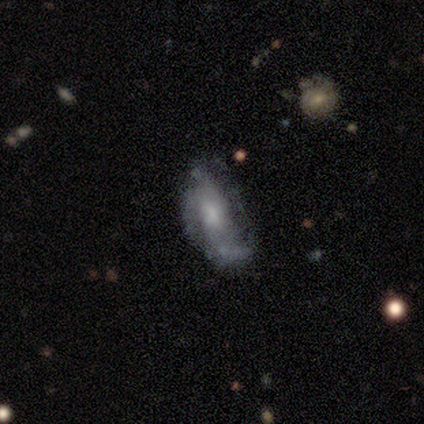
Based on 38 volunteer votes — smooth_or_featured: featured or disk (p=0.63) [alt: smooth p=0.34]
disk_edge_on: no (p=1.00)
bar: no (p=0.79) [alt: weak p=0.17]
has_spiral_arms: yes (p=0.62) [alt: no p=0.38]
spiral_winding: medium (p=0.53) [alt: tight p=0.27]
spiral_arm_count: can't tell (p=0.53) [alt: 2 p=0.27]
bulge_size: small (p=0.54) [alt: moderate p=0.21]
merging: none (p=0.35) [alt: minor disturbance p=0.32]